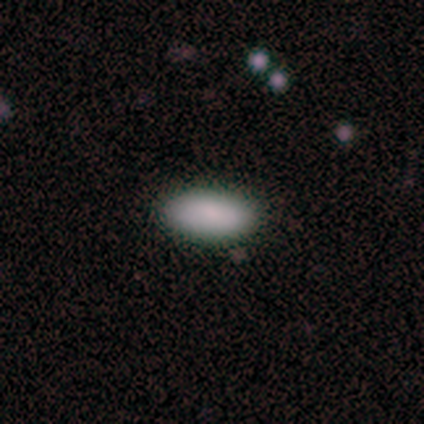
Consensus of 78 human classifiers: smooth 92%, featured or disk 8%, star or artifact 0%. Down the decision tree: how rounded — in between (97%); merging — none (45%).